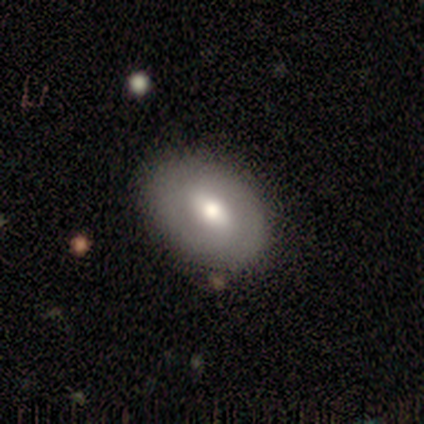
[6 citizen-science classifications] Smooth or featured: smooth — 100%
How rounded: in between — 83% (round — 17%)
Merging: none — 67% (minor disturbance — 33%)